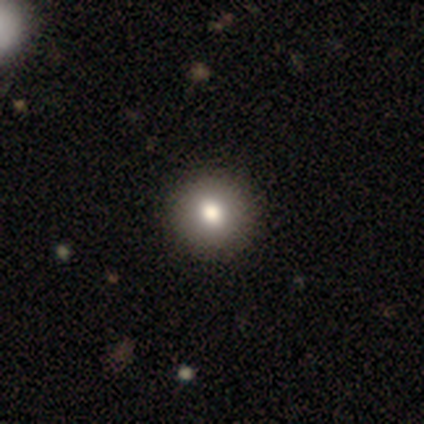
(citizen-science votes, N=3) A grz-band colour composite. It shows a smooth galaxy with no disk features (67%) that is round (100%). Merging: none (100%).